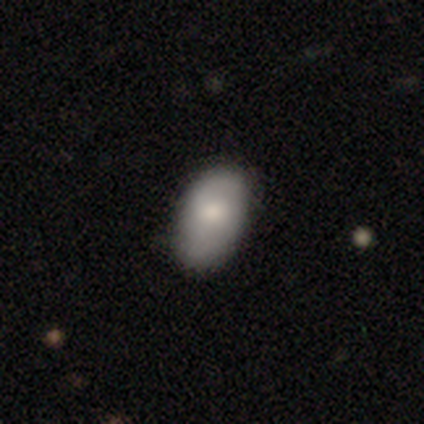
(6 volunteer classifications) smooth-or-featured: smooth: 83% | featured or disk: 17% | star or artifact: 0%
  how-rounded: in between: 100% | round: 0% | cigar-shaped: 0%
  merging: none: 50% (tied) | minor disturbance: 50% (tied) | major disturbance: 0% | merger: 0%